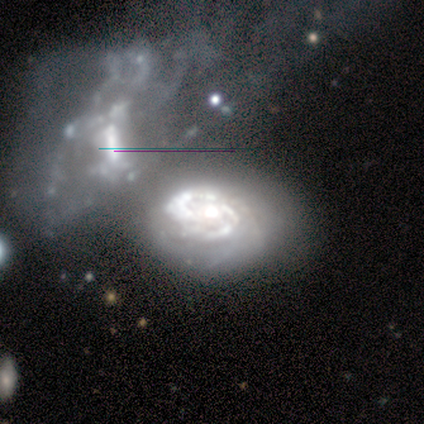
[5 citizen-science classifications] Morphology: type=featured or disk (100%); edge-on=no (100%); bar=no (80%); spiral arms=yes (80%); winding=tight (75%); arm count=can't tell (50%); bulge=moderate (60%); merging=merger (40%).